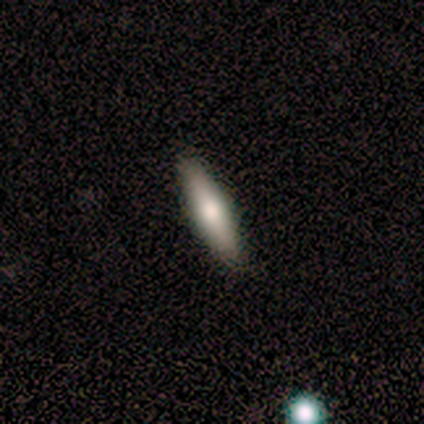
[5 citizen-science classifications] Overall: smooth (60%; featured or disk 40%). How rounded: cigar-shaped (67%; in between 33%). Merging: none (100%).